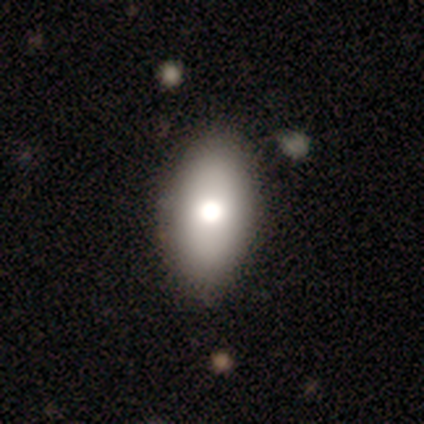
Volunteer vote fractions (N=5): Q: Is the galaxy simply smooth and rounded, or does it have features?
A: smooth — 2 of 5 (40%, tied with featured or disk).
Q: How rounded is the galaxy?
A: in between — 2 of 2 (100%).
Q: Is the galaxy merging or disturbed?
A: none — 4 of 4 (100%).